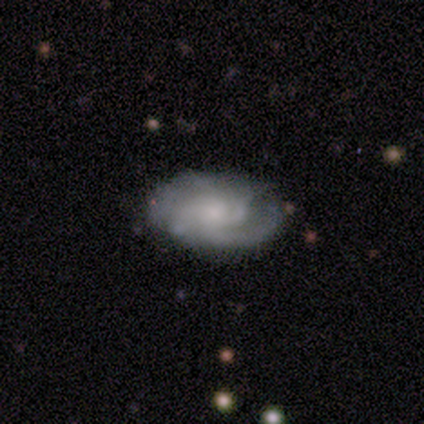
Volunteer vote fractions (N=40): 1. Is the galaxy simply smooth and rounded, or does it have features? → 78% featured or disk, 18% smooth, 5% star or artifact.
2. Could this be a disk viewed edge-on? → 100% no, 0% yes.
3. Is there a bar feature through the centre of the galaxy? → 84% no, 13% weak, 3% strong.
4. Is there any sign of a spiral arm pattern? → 97% yes, 3% no.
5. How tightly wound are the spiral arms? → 60% medium, 37% tight, 3% loose.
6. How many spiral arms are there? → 37% can't tell, 27% 3, 17% 2, 17% 4, 3% 1, 0% more than 4.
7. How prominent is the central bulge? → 55% small, 23% moderate, 19% none, 3% large, 0% dominant.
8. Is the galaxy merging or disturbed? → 82% none, 11% minor disturbance, 8% major disturbance, 0% merger.